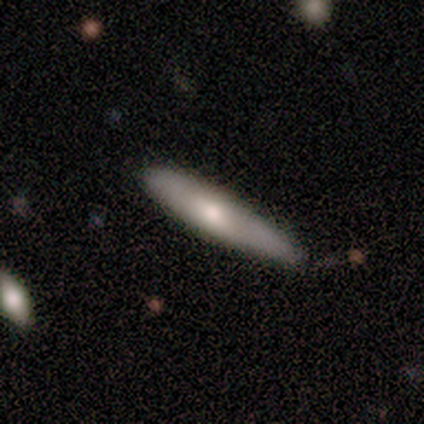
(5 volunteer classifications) Smooth or featured: smooth — 100%
How rounded: cigar-shaped — 100%
Merging: none — 60% (minor disturbance — 40%)